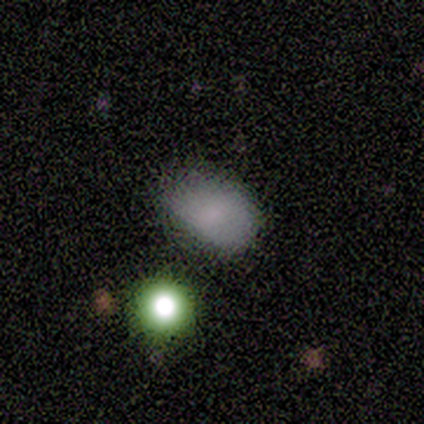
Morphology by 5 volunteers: Volunteers were most divided on "merging": minor disturbance: 60%, none: 40%, major disturbance: 0%, merger: 0%. More confident: how rounded — in between (100%); smooth or featured — smooth (80%).